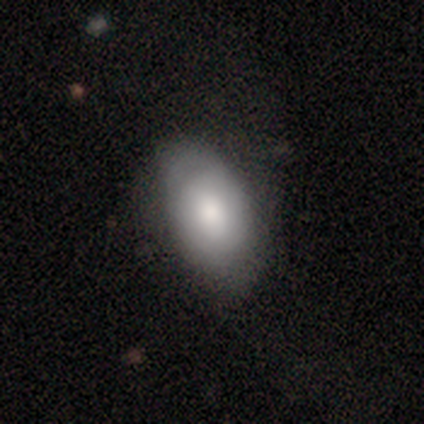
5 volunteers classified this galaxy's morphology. Smooth or featured?
  - smooth: 80% *
  - featured or disk: 20%
  - star or artifact: 0%
How rounded?
  - in between: 75% *
  - round: 25%
  - cigar-shaped: 0%
Merging?
  - minor disturbance: 60% *
  - none: 40%
  - major disturbance: 0%
  - merger: 0%